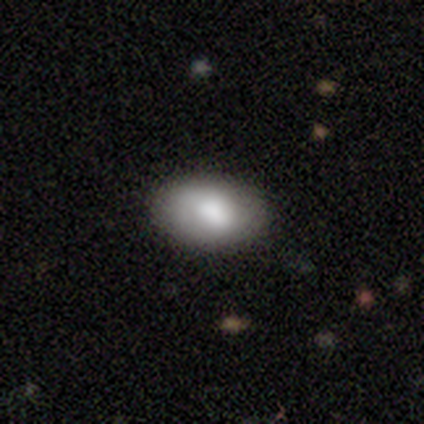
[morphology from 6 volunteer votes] Overall: smooth (83%). How rounded: in between (100%). Merging: none (83%).